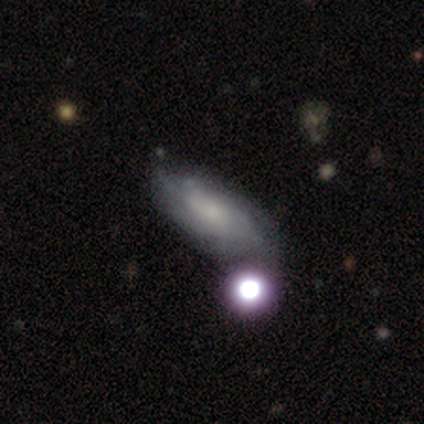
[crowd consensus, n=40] Volunteers were most divided on "spiral winding": medium: 58%, tight: 37%, loose: 5%. Remaining: spiral arms — yes (90%); edge-on disk — no (84%); spiral arm count — can't tell (74%); bar — no (71%); smooth or featured — featured or disk (62%); bulge size — small (48%); merging — none (46%).